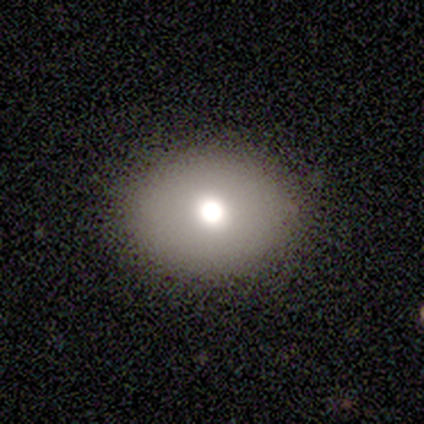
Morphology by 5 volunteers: smooth-or-featured: smooth: 40% (tied) | featured or disk: 40% (tied) | star or artifact: 20%
  how-rounded: in between: 100% | round: 0% | cigar-shaped: 0%
  merging: none: 100% | minor disturbance: 0% | major disturbance: 0% | merger: 0%